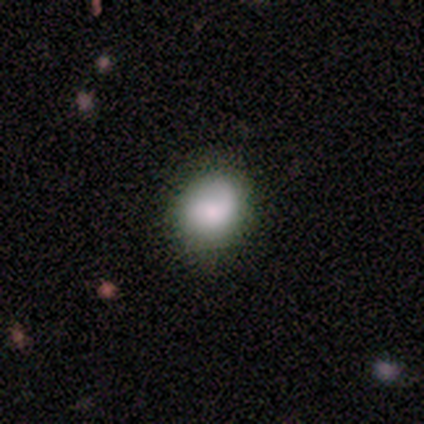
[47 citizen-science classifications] Q: Smooth or featured?
A: smooth (62%); runner-up: featured or disk (34%)
Q: How rounded?
A: round (55%); runner-up: in between (45%)
Q: Merging?
A: none (82%); runner-up: minor disturbance (13%)